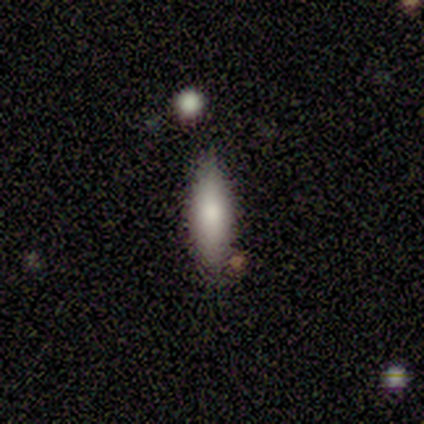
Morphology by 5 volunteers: smooth-or-featured: smooth: 100% | featured or disk: 0% | star or artifact: 0%
  how-rounded: cigar-shaped: 60% | in between: 40% | round: 0%
  merging: none: 60% | minor disturbance: 40% | major disturbance: 0% | merger: 0%